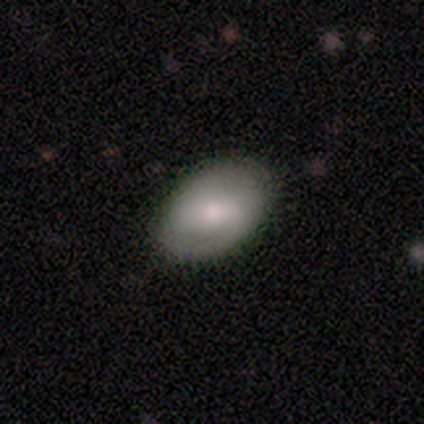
smooth-or-featured: featured or disk: 60% | smooth: 40% | star or artifact: 0%
  disk-edge-on: no: 100% | yes: 0%
    bar: weak: 100% | strong: 0% | no: 0%
    has-spiral-arms: yes: 67% | no: 33%
      spiral-winding: medium: 100% | tight: 0% | loose: 0%
      spiral-arm-count: 2: 100% | 1: 0% | 3: 0% | 4: 0% | more than 4: 0% | can't tell: 0%
    bulge-size: small: 100% | dominant: 0% | large: 0% | moderate: 0% | none: 0%
  merging: none: 100% | minor disturbance: 0% | major disturbance: 0% | merger: 0%